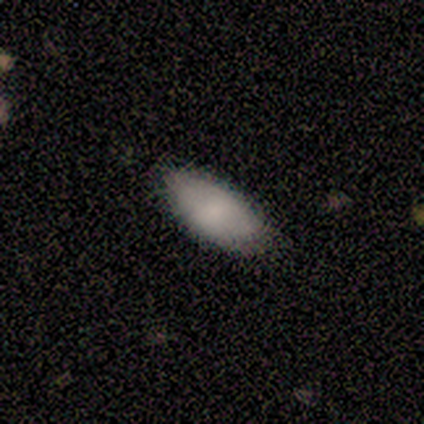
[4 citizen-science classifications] Smooth or featured?
  - smooth: 75% *
  - star or artifact: 25%
  - featured or disk: 0%
How rounded?
  - in between: 100% *
  - round: 0%
  - cigar-shaped: 0%
Merging?
  - none: 67% *
  - minor disturbance: 33%
  - major disturbance: 0%
  - merger: 0%